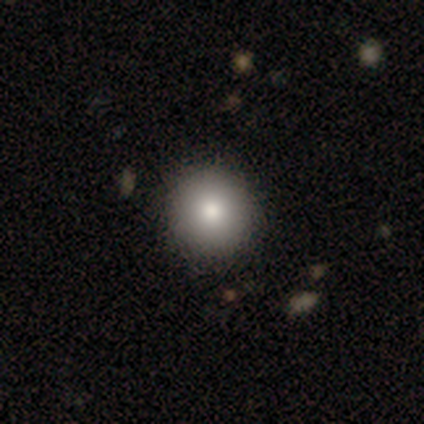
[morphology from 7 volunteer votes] Overall: smooth (57%; star or artifact 29%). How rounded: round (100%). Merging: none (80%).